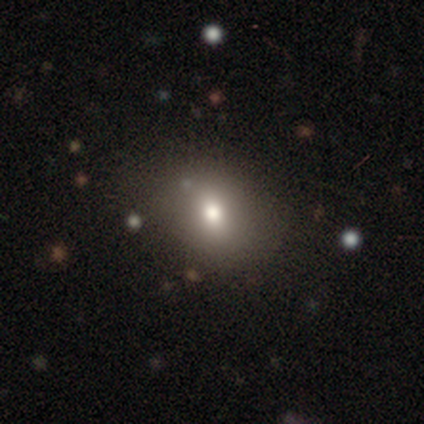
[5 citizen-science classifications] This is clearly a smooth galaxy (80%). How rounded: possibly round (50%, tied with in between). Merging: clearly none (100%).